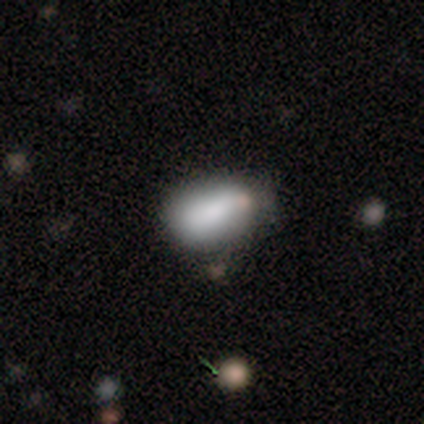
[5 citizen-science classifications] smooth-or-featured: smooth: 100% | featured or disk: 0% | star or artifact: 0%
  how-rounded: in between: 100% | round: 0% | cigar-shaped: 0%
  merging: minor disturbance: 60% | none: 40% | major disturbance: 0% | merger: 0%